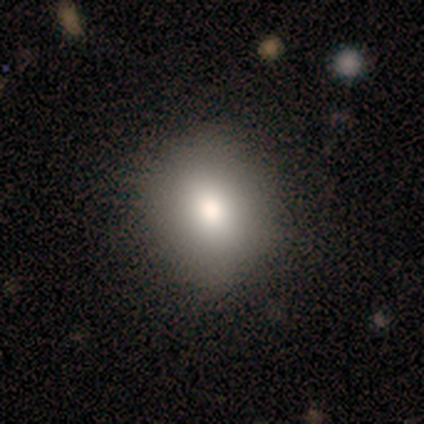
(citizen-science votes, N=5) smooth_or_featured: smooth (p=0.80) [alt: featured or disk p=0.20]
how_rounded: round (p=0.75) [alt: in between p=0.25]
merging: none (p=0.80) [alt: minor disturbance p=0.20]